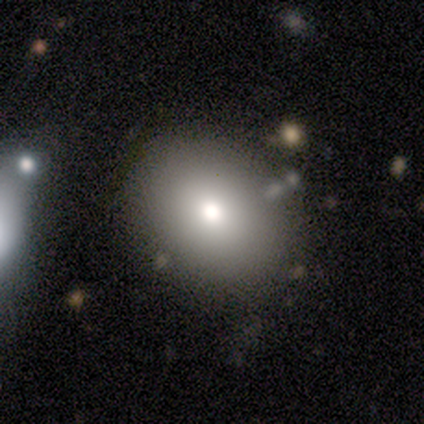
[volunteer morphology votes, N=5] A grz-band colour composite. It shows a smooth galaxy with no disk features (80%) that is in between round and cigar-shaped (75%). Merging: none (75%).